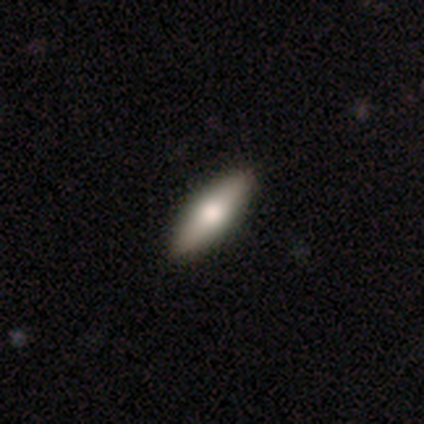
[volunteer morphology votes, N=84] Smooth or featured: smooth — 52% (featured or disk — 40%)
How rounded: in between — 61% (cigar-shaped — 39%)
Merging: none — 94% (major disturbance — 3%)